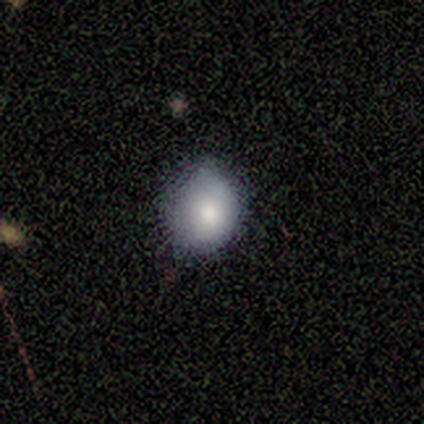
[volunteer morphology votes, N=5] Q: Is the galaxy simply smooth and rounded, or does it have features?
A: smooth — 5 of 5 (100%).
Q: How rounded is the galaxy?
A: round — 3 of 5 (60%).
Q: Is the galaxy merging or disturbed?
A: none — 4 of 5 (80%).